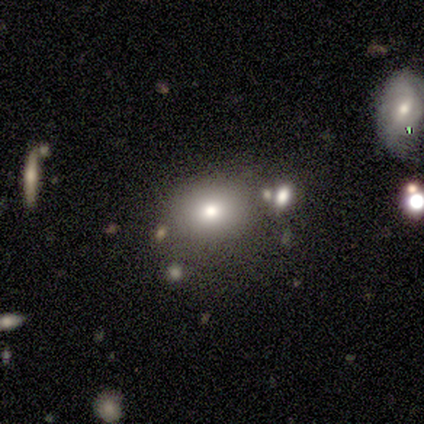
star or artifact 67%, smooth 33%, featured or disk 0%.